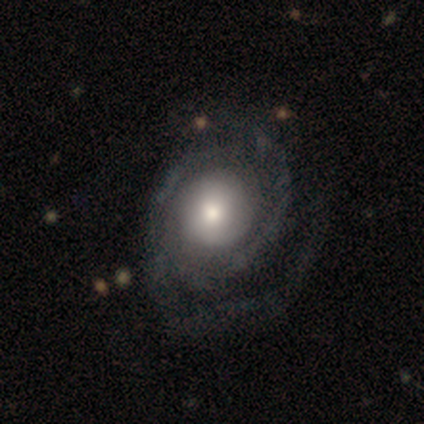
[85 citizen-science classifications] Volunteers were most divided on "bulge size": moderate: 50%, large: 36%, small: 8%, dominant: 6%, none: 0%. Remaining: edge-on disk — no (97%); spiral arms — yes (86%); bar — no (82%); smooth or featured — featured or disk (80%); merging — none (68%); spiral winding — tight (65%); spiral arm count — 2 (47%).